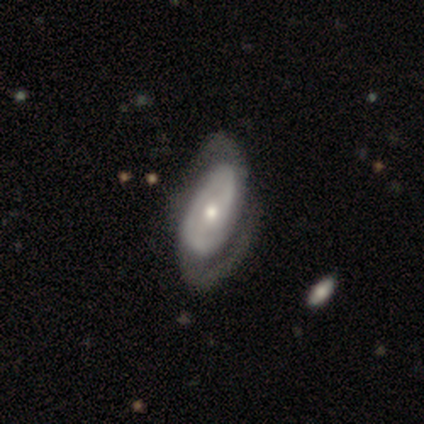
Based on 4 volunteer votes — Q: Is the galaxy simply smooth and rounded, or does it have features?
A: featured or disk — 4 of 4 (100%).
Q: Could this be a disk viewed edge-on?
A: no — 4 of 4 (100%).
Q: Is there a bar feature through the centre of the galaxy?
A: no — 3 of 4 (75%).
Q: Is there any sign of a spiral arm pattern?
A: yes — 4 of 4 (100%).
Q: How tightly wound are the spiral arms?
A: medium — 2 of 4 (50%).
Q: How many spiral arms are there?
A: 2 — 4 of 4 (100%).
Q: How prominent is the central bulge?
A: small — 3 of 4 (75%).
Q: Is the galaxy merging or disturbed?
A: none — 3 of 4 (75%).